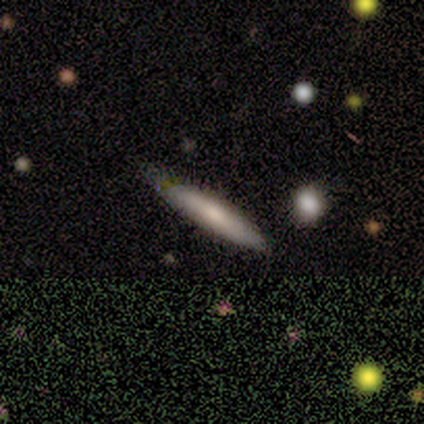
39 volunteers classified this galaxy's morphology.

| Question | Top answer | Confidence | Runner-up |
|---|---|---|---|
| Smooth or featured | smooth | 51% | featured or disk (44%) |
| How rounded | cigar-shaped | 80% | in between (20%) |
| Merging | none | 54% | minor disturbance (22%) |